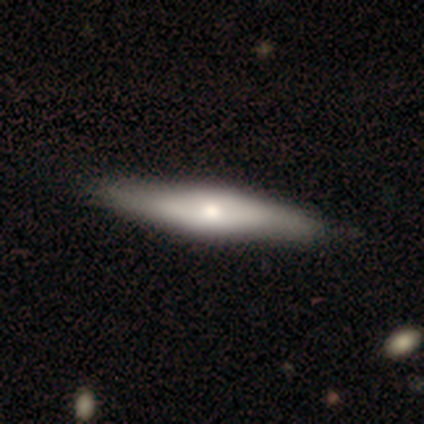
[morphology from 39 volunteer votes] smooth-or-featured: featured or disk: 54% | smooth: 46% | star or artifact: 0%
  disk-edge-on: yes: 81% | no: 19%
    edge-on-bulge: rounded: 65% | boxy: 35% | none: 0%
  merging: none: 54% | minor disturbance: 13% | major disturbance: 5% | merger: 0%